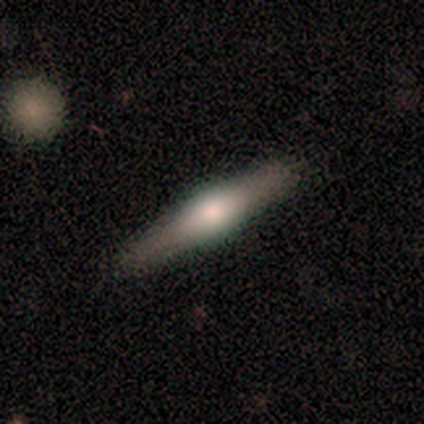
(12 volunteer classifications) smooth-or-featured: featured or disk: 67% | smooth: 25% | star or artifact: 8%
  disk-edge-on: yes: 100% | no: 0%
    edge-on-bulge: rounded: 62% | boxy: 25% | none: 12%
  merging: none: 91% | major disturbance: 9% | minor disturbance: 0% | merger: 0%